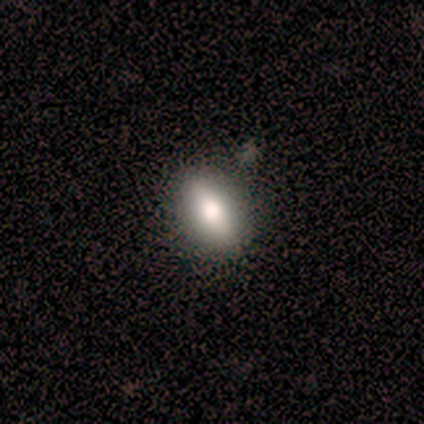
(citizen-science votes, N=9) smooth 56%, featured or disk 44%, star or artifact 0%. Down the decision tree: how rounded — in between (100%); merging — none (100%).